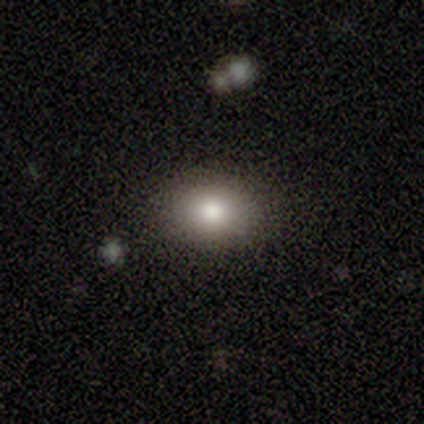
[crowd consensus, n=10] smooth 80%, featured or disk 10%, star or artifact 10%. Down the decision tree: how rounded — in between (62%); merging — none (89%).